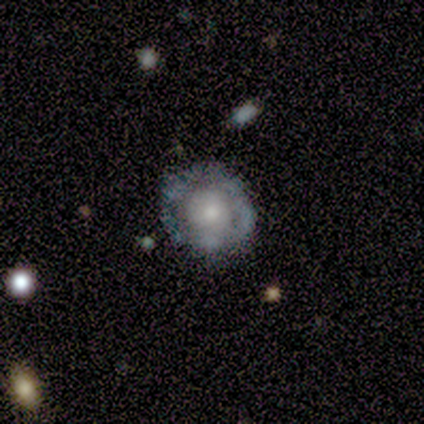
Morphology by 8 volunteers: Overall: featured or disk (88%). Edge-on disk: no (100%). Bar: no (86%). Spiral arms: no (71%). Bulge size: small (43%; moderate 29%). Merging: none (75%).